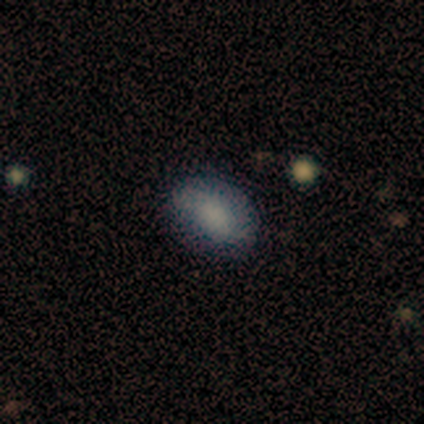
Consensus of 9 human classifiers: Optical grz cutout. It shows a smooth galaxy with no disk features (89%) that is in between round and cigar-shaped (100%). Merging: none (62%).